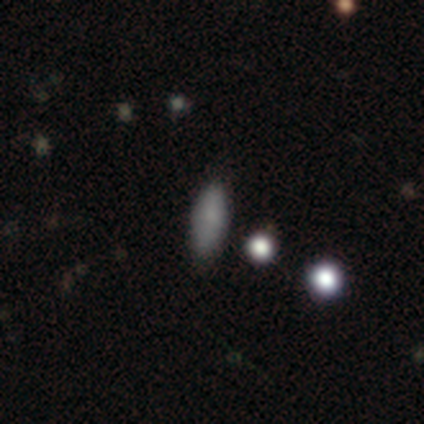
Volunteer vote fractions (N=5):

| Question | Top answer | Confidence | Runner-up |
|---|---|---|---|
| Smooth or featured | smooth | 60% | star or artifact (40%) |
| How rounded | in between | 100% | — |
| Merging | none | 100% | — |